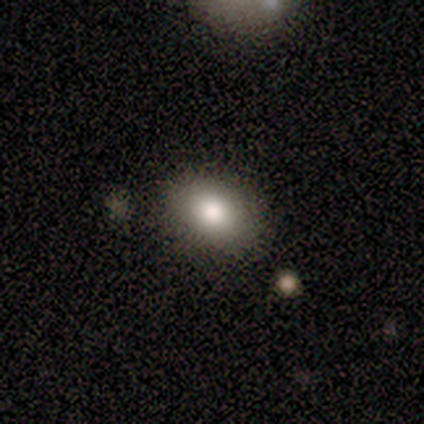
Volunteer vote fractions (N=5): Smooth or featured: smooth — 80% (featured or disk — 20%)
How rounded: in between — 100%
Merging: none — 60% (minor disturbance — 20%)